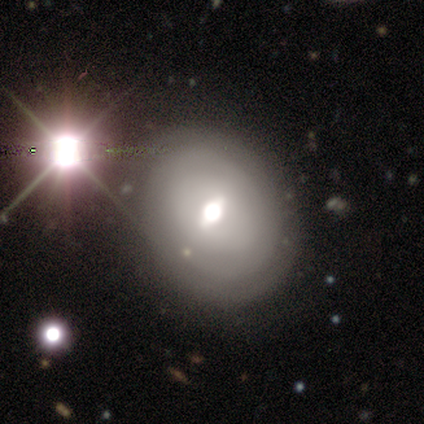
This is likely a featured or disk galaxy (60%). It is clearly not viewed edge-on (100%). Bar: marginally strong (33%, tied with weak and no). Spiral arm pattern: likely no (67%). Central bulge: clearly moderate (100%). Merging: clearly none (100%).